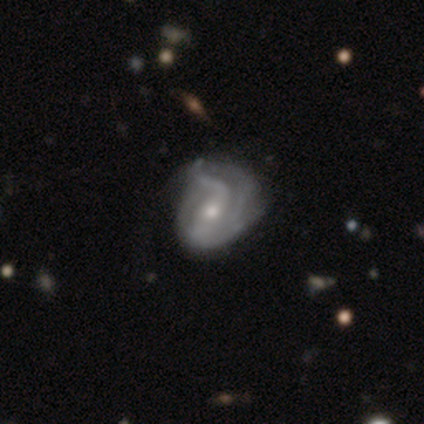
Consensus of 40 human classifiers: smooth-or-featured: featured or disk: 90% | smooth: 8% | star or artifact: 2%
  disk-edge-on: no: 97% | yes: 3%
    bar: weak: 40% | strong: 34% | no: 26%
    has-spiral-arms: yes: 89% | no: 11%
      spiral-winding: loose: 39% | medium: 35% | tight: 26%
      spiral-arm-count: 2: 52% | 3: 23% | can't tell: 19% | 1: 3% | 4: 3% | more than 4: 0%
    bulge-size: small: 51% | moderate: 49% | dominant: 0% | large: 0% | none: 0%
  merging: minor disturbance: 33% | major disturbance: 18% | none: 15% | merger: 0%